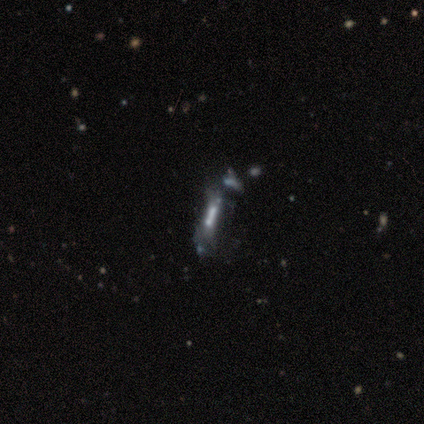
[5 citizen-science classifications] This is likely a featured or disk galaxy (60%). It is likely viewed edge-on (67%). Edge-on bulge: clearly none (100%). Merging: possibly major disturbance (50%).